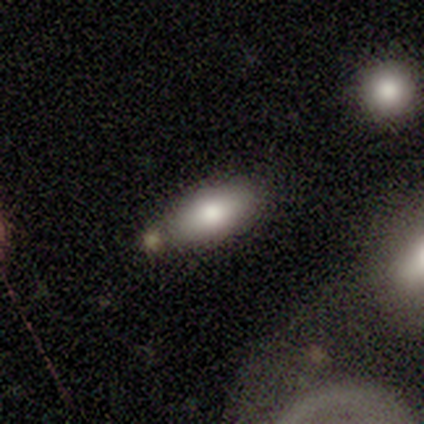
Smooth or featured?
  - smooth: 80% *
  - featured or disk: 20%
  - star or artifact: 0%
How rounded?
  - in between: 100% *
  - round: 0%
  - cigar-shaped: 0%
Merging?
  - minor disturbance: 40% * (tied)
  - merger: 40% * (tied)
  - none: 20%
  - major disturbance: 0%